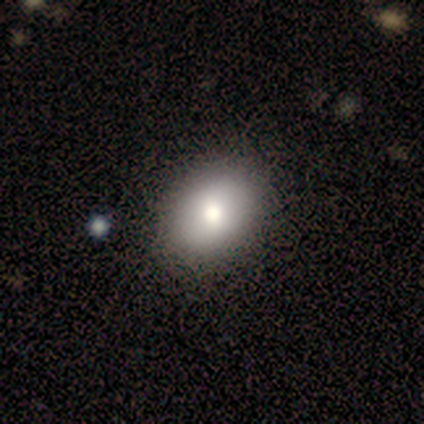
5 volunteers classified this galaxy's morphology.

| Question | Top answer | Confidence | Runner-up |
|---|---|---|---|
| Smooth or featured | smooth | 80% | star or artifact (20%) |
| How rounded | in between | 100% | — |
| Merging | none | 100% | — |